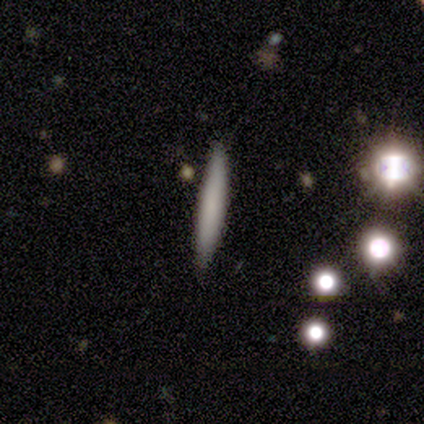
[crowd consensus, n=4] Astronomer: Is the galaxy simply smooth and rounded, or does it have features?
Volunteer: smooth — 100%.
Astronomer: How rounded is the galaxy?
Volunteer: cigar-shaped — 100%.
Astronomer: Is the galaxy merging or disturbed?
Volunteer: none — 75%.